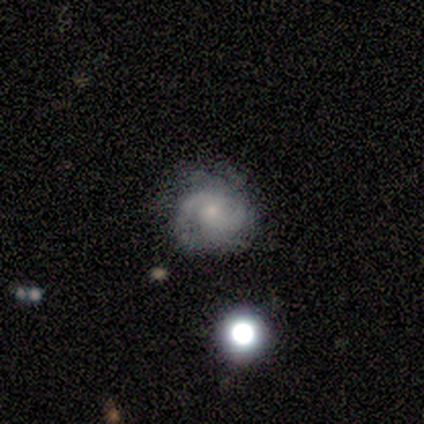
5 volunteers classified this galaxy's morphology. Q: Smooth or featured?
A: featured or disk (80%); runner-up: smooth (20%)
Q: Edge-on disk?
A: no (100%)
Q: Bar?
A: no (75%); runner-up: weak (25%)
Q: Spiral arms?
A: yes (100%)
Q: Spiral winding?
A: loose (50%); runner-up: tight (25%)
Q: Spiral arm count?
A: 2 (75%); runner-up: 3 (25%)
Q: Bulge size?
A: small (75%); runner-up: moderate (25%)
Q: Merging?
A: none (100%)